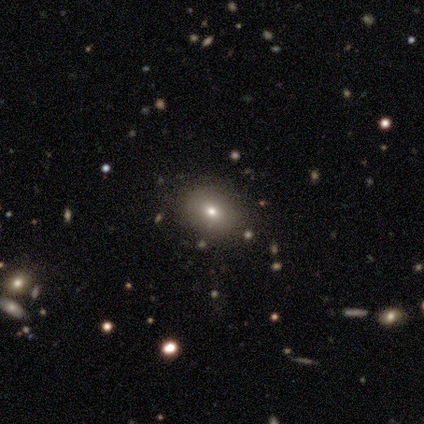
This appears to be a smooth galaxy with no disk features (50%, tied with star or artifact) that is in between round and cigar-shaped (100%). Merging: minor disturbance (100%).